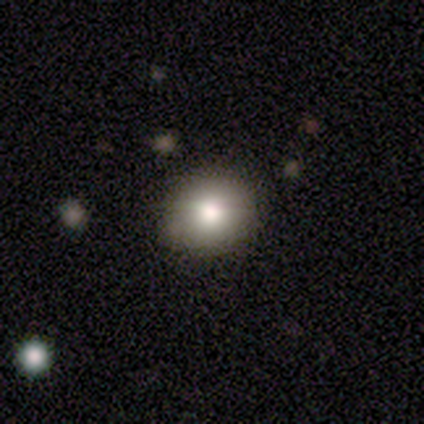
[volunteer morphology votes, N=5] A smooth galaxy with no disk features (100%) that is round (80%).

Vote fractions:
- Smooth or featured? smooth: 100% / featured or disk: 0% / star or artifact: 0%
- How rounded? round: 80% / in between: 20% / cigar-shaped: 0%
- Merging? none: 80% / merger: 20% / minor disturbance: 0% / major disturbance: 0%